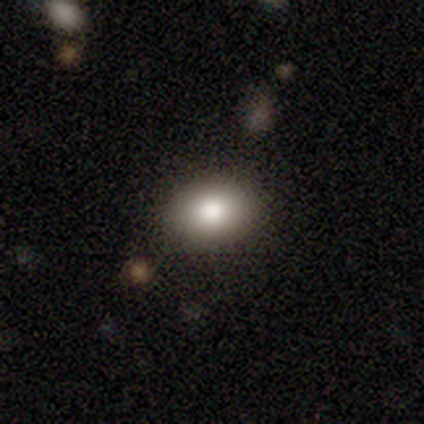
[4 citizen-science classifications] Q: Smooth or featured?
A: smooth (75%); runner-up: star or artifact (25%)
Q: How rounded?
A: in between (67%); runner-up: round (33%)
Q: Merging?
A: none (100%)